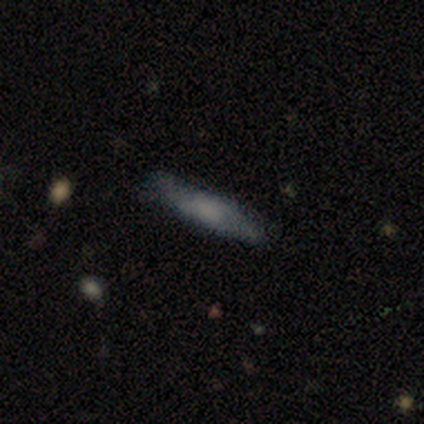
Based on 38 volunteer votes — Smooth or featured? 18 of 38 (47%) said smooth. How rounded? 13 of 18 (72%) said cigar-shaped. Merging? 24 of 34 (71%) said none.